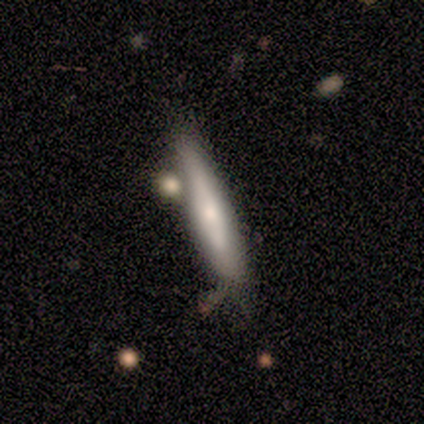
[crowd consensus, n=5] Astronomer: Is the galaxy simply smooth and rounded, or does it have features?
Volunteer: featured or disk — 60% (runner-up: smooth, 40%).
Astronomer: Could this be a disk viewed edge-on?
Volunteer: yes — 67%.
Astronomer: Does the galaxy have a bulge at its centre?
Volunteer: none — 50%, tied with rounded at 50%.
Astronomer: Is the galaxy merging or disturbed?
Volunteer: none — 40%, tied with merger at 40%.